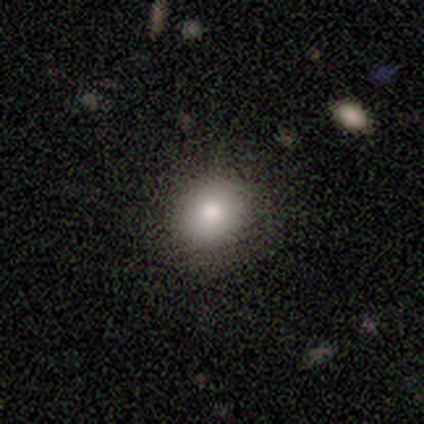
Morphology: type=smooth (80%); roundness=round (50%, tied with in between); merging=none (100%).